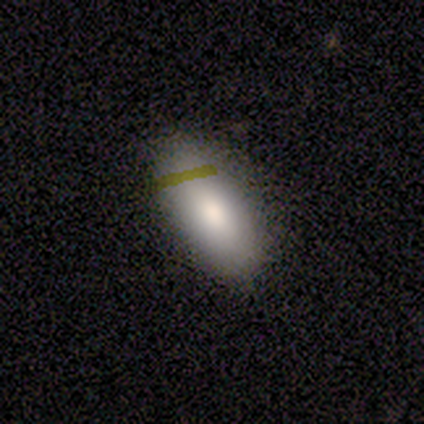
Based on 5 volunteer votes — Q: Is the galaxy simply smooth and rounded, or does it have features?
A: smooth — 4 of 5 (80%).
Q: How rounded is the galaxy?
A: in between — 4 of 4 (100%).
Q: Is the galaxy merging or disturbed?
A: none — 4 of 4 (100%).